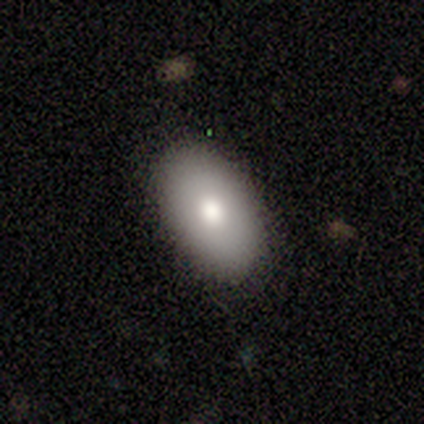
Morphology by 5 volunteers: A smooth galaxy with no disk features (60%) that is in between round and cigar-shaped (100%). Merging: none (100%).